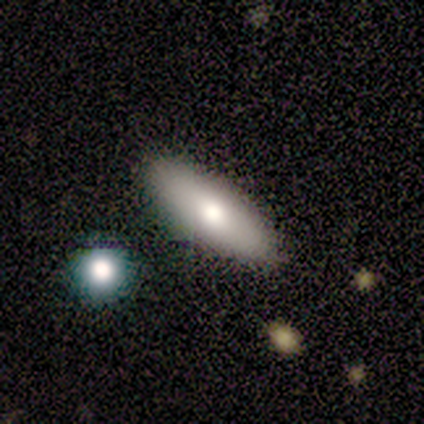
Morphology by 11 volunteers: Smooth or featured? 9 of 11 (82%) said smooth. How rounded? 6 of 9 (67%) said in between. Merging? 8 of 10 (80%) said none.